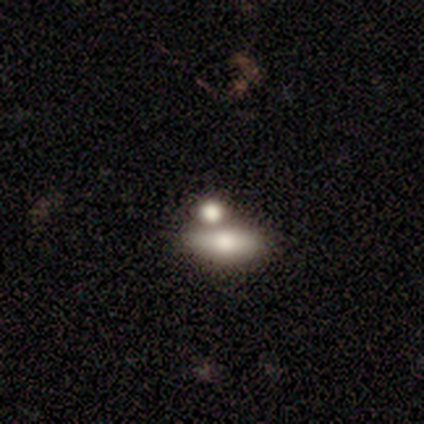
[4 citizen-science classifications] Volunteers were most divided on "merging" (2-way tie): none: 50%, merger: 50%, minor disturbance: 0%, major disturbance: 0%. More confident: smooth or featured — smooth (100%); how rounded — in between (100%).